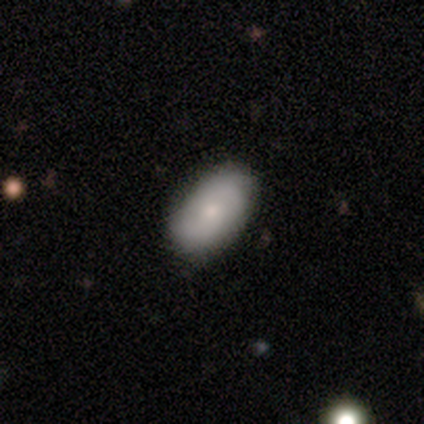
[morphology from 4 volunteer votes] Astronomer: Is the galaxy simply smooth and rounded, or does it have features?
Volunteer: smooth — 75%.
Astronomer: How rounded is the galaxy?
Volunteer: in between — 100%.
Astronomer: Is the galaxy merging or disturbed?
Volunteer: none — 100%.